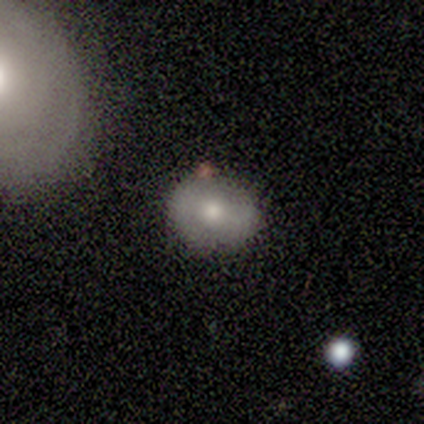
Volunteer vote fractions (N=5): Volunteers were most divided on "how rounded": round: 75%, in between: 25%, cigar-shaped: 0%. More confident: smooth or featured — smooth (80%); merging — none (80%).